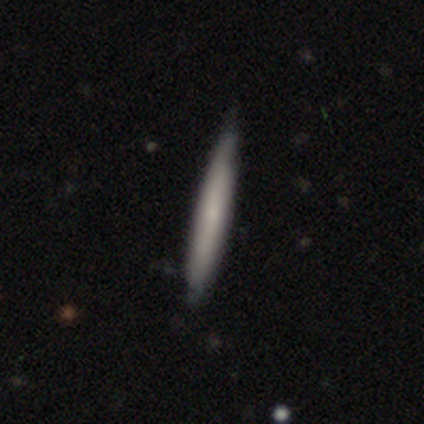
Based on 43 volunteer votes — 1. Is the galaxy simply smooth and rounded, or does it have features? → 42% featured or disk, 40% smooth, 19% star or artifact.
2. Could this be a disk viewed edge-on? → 83% yes, 17% no.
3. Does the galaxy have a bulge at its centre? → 67% none, 27% rounded, 7% boxy.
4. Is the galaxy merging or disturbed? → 29% none, 23% minor disturbance, 6% major disturbance, 3% merger.